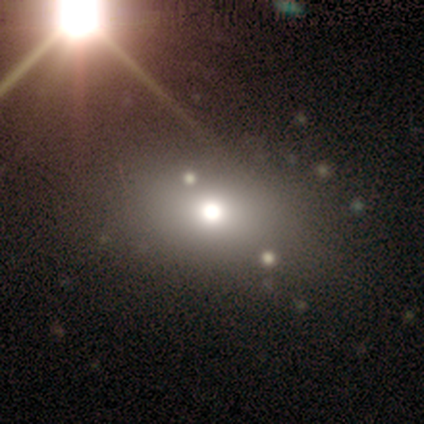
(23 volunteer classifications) smooth 52%, featured or disk 26%, star or artifact 22%. Down the decision tree: how rounded — in between (75%); merging — none (94%).